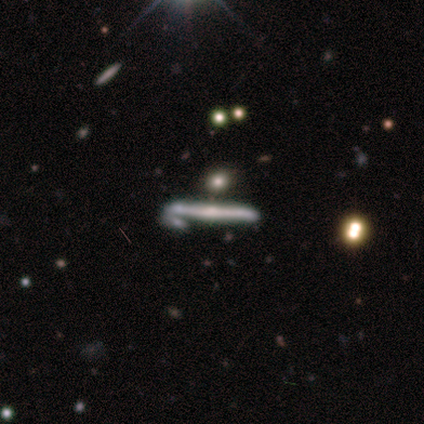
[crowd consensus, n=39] A featured or disk galaxy (62%) viewed edge-on (96%) with a rounded central bulge (74%). Merging: none (58%).